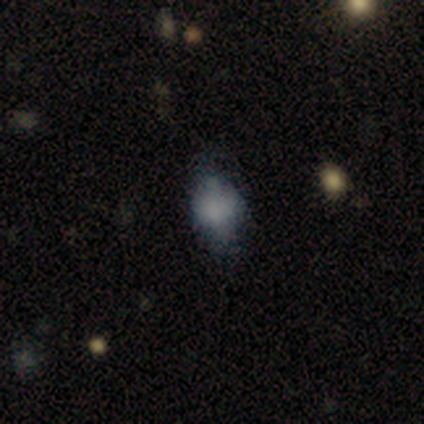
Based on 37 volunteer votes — Morphology: type=smooth (65%); roundness=in between (71%); merging=none (59%).